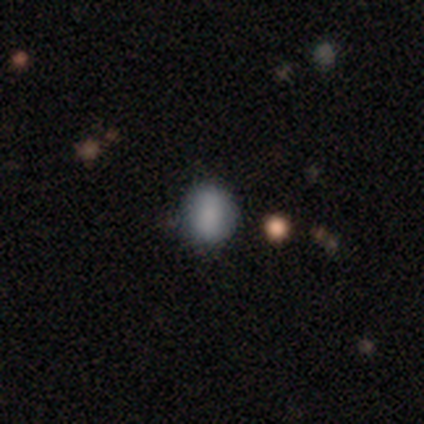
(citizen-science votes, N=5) Volunteers were most divided on "merging": none: 60%, minor disturbance: 40%, major disturbance: 0%, merger: 0%. More confident: smooth or featured — smooth (100%); how rounded — round (80%).